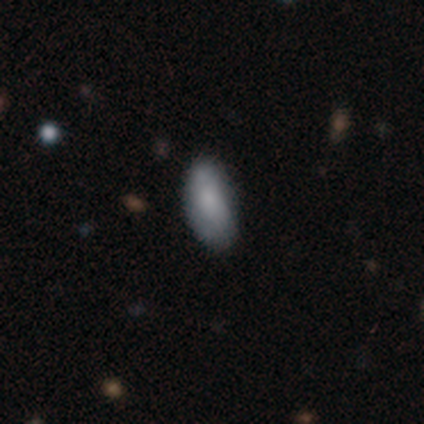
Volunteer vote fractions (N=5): Overall: smooth (100%). How rounded: in between (100%). Merging: none (60%; minor disturbance 40%).